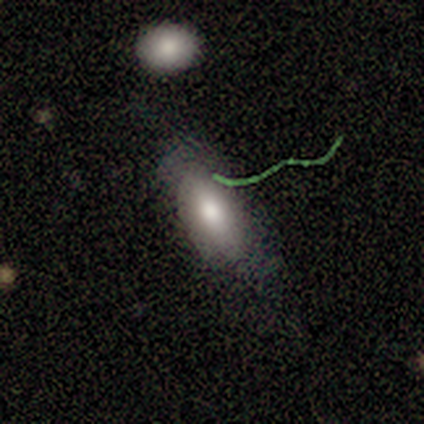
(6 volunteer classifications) smooth_or_featured: smooth (p=0.83) [alt: featured or disk p=0.17]
how_rounded: in between (p=0.60) [alt: cigar-shaped p=0.40]
merging: none (p=0.67) [alt: minor disturbance p=0.17]